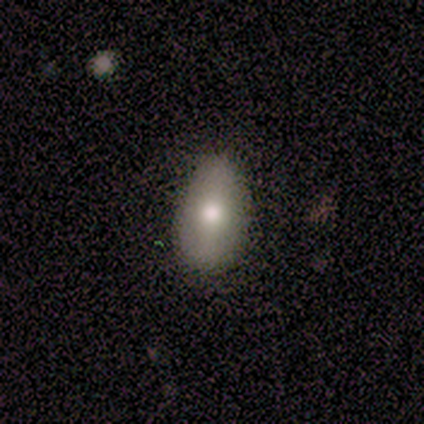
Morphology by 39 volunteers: Smooth or featured? 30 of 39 (77%) said smooth. How rounded? 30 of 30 (100%) said in between. Merging? 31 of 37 (84%) said none.